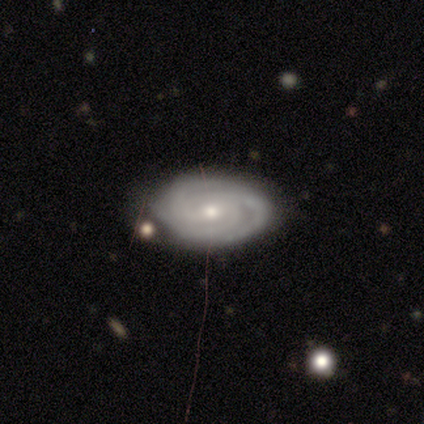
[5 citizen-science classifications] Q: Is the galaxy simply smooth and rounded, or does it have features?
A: featured or disk — 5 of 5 (100%).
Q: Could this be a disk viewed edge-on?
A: no — 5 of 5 (100%).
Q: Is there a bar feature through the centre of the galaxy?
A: weak — 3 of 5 (60%).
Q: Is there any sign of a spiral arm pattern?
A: yes — 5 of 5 (100%).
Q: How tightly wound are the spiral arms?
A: tight — 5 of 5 (100%).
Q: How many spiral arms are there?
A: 3 — 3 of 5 (60%).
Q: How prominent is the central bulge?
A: small — 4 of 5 (80%).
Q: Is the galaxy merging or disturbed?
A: none — 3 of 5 (60%).